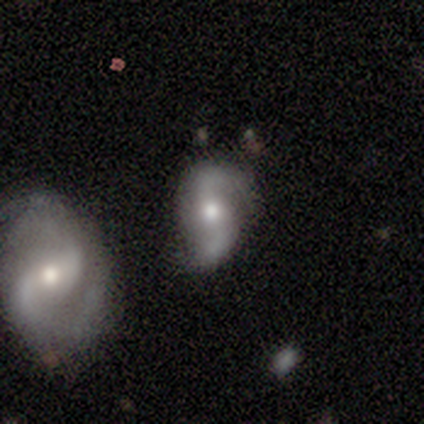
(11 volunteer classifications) featured or disk 91%, smooth 9%, star or artifact 0%. Down the decision tree: edge-on disk — no (100%); bar — no (80%); spiral arms — yes (100%); spiral arm count — 2 (100%); spiral winding — loose (70%); bulge size — moderate (60%); merging — none (82%).